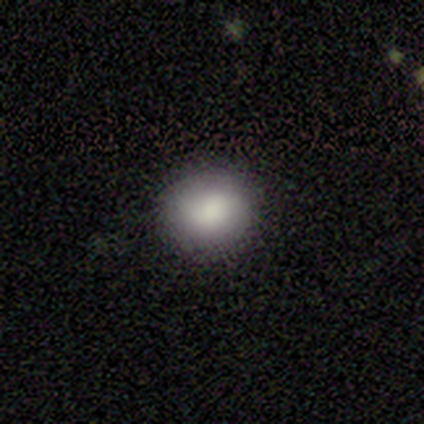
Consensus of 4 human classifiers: A smooth galaxy with no disk features (75%) that is round (100%). Merging: none (75%).